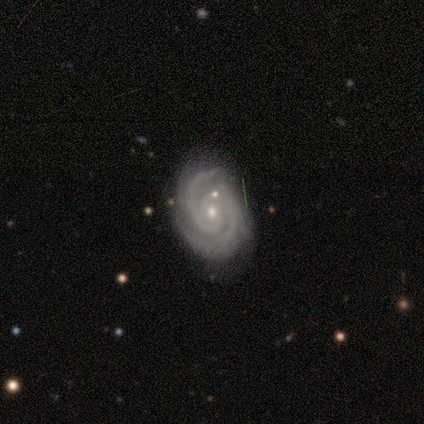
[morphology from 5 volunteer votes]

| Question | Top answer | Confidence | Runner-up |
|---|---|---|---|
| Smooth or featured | featured or disk | 80% | smooth (20%) |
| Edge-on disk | no | 100% | — |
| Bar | no | 75% | weak (25%) |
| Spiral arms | yes | 100% | — |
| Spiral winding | medium | 75% | tight (25%) |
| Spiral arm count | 2 | 75% | 3 (25%) |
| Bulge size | small | 100% | — |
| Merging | none | 60% | minor disturbance (20%) |